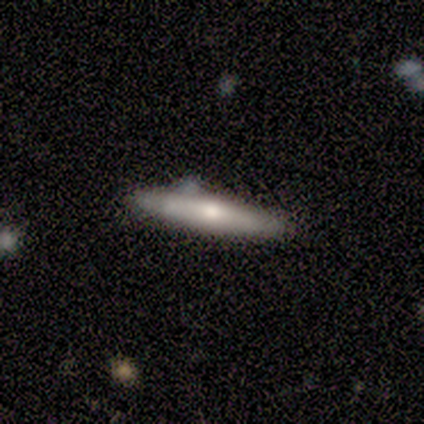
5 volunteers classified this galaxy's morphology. This is likely a smooth galaxy (60%). How rounded: clearly cigar-shaped (100%). Merging: possibly none (50%, tied with minor disturbance).